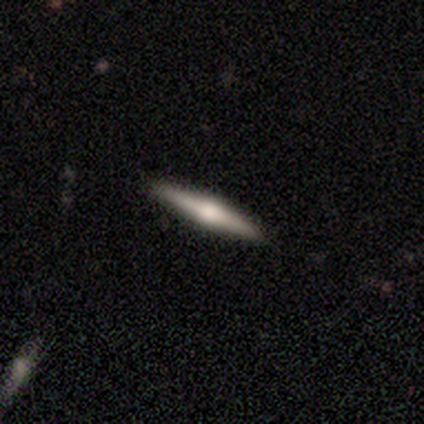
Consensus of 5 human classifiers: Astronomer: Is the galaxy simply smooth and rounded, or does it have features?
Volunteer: featured or disk — 80%.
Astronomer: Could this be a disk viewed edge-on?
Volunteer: yes — 100%.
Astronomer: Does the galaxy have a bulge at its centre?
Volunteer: rounded — 75%.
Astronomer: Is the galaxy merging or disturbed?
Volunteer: none — 80%.